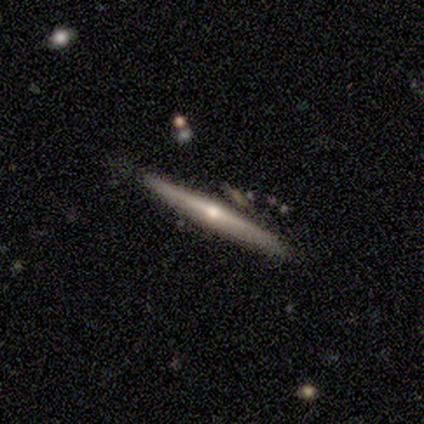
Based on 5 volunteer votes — Smooth or featured? 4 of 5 (80%) said featured or disk. Edge-on disk? 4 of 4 (100%) said yes. Edge-on bulge? 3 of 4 (75%) said rounded. Merging? 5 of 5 (100%) said none.